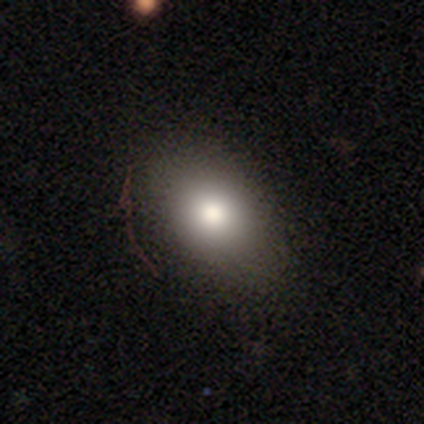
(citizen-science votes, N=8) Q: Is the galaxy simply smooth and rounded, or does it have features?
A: smooth — 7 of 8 (88%).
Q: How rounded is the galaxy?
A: in between — 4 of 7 (57%).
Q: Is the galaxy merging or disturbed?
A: none — 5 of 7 (71%).